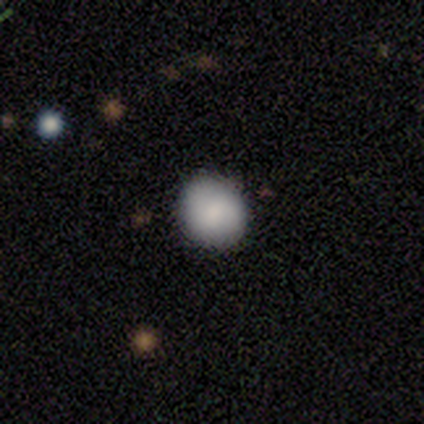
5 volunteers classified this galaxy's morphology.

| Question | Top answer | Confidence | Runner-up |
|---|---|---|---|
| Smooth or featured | smooth | 60% | featured or disk (40%) |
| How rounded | round | 100% | — |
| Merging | none | 100% | — |